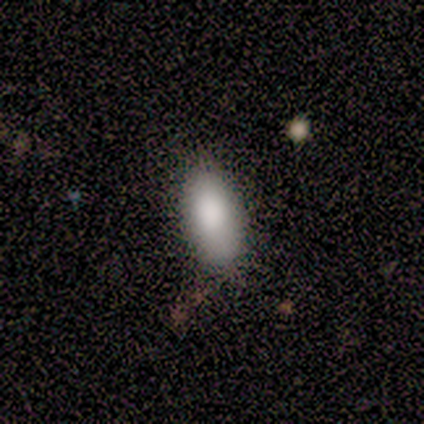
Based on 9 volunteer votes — smooth 100%, featured or disk 0%, star or artifact 0%. Down the decision tree: how rounded — in between (100%); merging — none (89%).